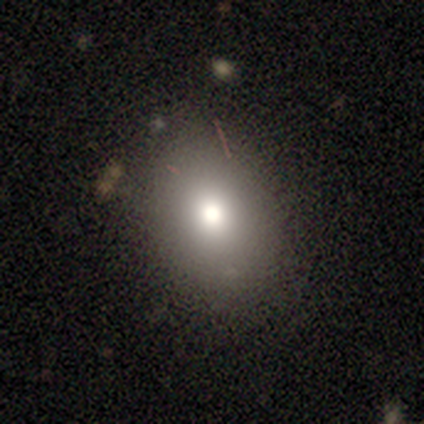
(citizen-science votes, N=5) smooth-or-featured: smooth: 60% | featured or disk: 20% | star or artifact: 20%
  how-rounded: round: 67% | in between: 33% | cigar-shaped: 0%
  merging: none: 50% (tied) | minor disturbance: 50% (tied) | major disturbance: 0% | merger: 0%